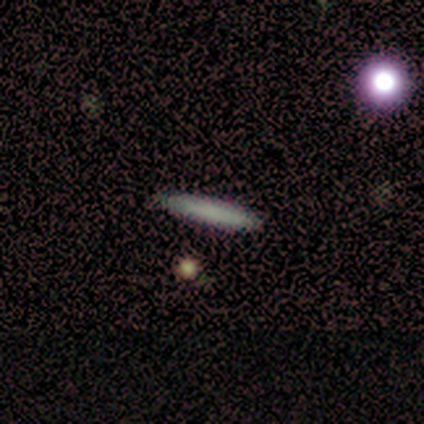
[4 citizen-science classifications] Smooth or featured: smooth — 50% (featured or disk — 25%)
How rounded: cigar-shaped — 100%
Merging: none — 100%